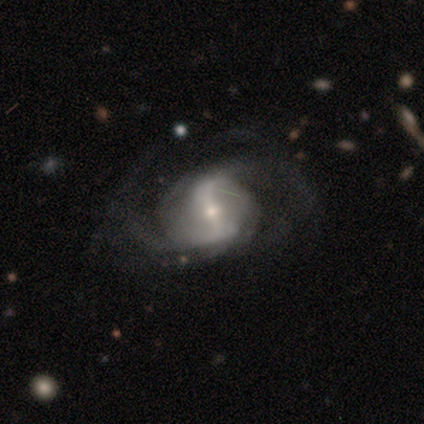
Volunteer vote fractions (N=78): Smooth or featured: featured or disk — 95% (smooth — 3%)
Edge-on disk: no — 97% (yes — 3%)
Bar: strong — 49% (weak — 33%)
Spiral arms: yes — 93% (no — 7%)
Spiral winding: loose — 52% (medium — 39%)
Spiral arm count: 2 — 76% (can't tell — 16%)
Bulge size: small — 60% (moderate — 35%)
Merging: none — 28% (major disturbance — 17%)